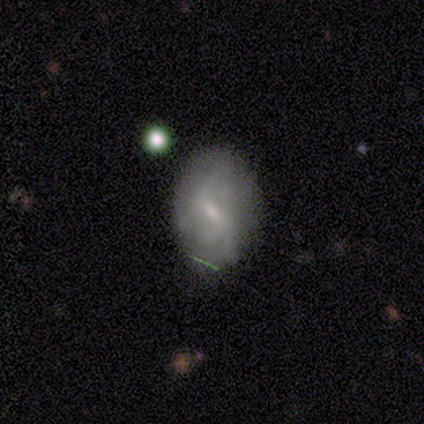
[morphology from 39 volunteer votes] A featured or disk galaxy (51%) with a weak bar (55%), 2 (41%, tied with can't tell) loose (71%) spiral arms (85%) and a small central bulge (70%).

Vote fractions:
- Smooth or featured? featured or disk: 51% / smooth: 44% / star or artifact: 5%
- Edge-on disk? no: 100% / yes: 0%
- Bar? weak: 55% / strong: 30% / no: 15%
- Spiral arms? yes: 85% / no: 15%
- Spiral winding? loose: 71% / medium: 18% / tight: 12%
- Spiral arm count? 2: 41% (tied) / can't tell: 41% (tied) / 3: 18% / 1: 0% / 4: 0% / more than 4: 0%
- Bulge size? small: 70% / moderate: 15% / none: 15% / dominant: 0% / large: 0%
- Merging? none: 65% / minor disturbance: 22% / major disturbance: 11% / merger: 3%